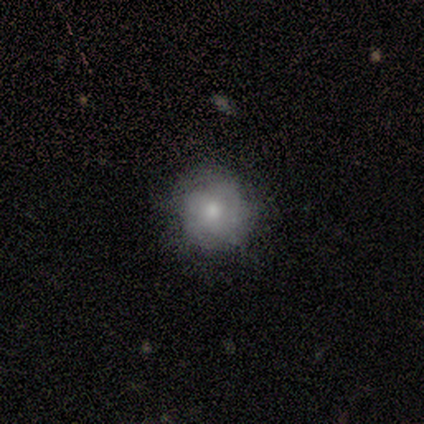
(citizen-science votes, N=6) Morphology: type=featured or disk (67%); edge-on=no (100%); bar=no (100%); spiral arms=no (100%); bulge=moderate (75%); merging=none (67%).